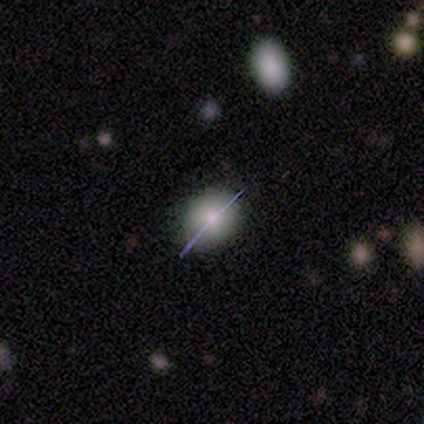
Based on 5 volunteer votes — This is likely a featured or disk galaxy (60%). It is likely viewed edge-on (67%). Edge-on bulge: clearly rounded (100%). Merging: clearly none (100%).